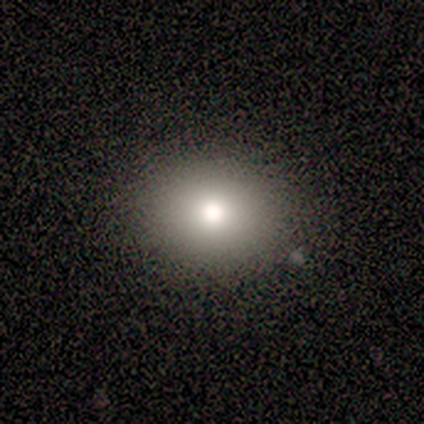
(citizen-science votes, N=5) smooth 60%, featured or disk 20%, star or artifact 20%. Down the decision tree: how rounded — round (67%); merging — none (50%, tied with minor disturbance).